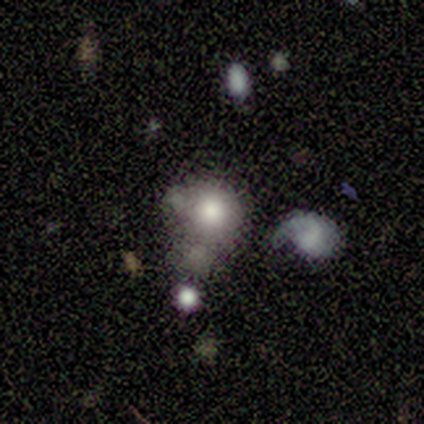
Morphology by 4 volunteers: type=smooth (75%); roundness=round (67%); merging=major disturbance (67%).